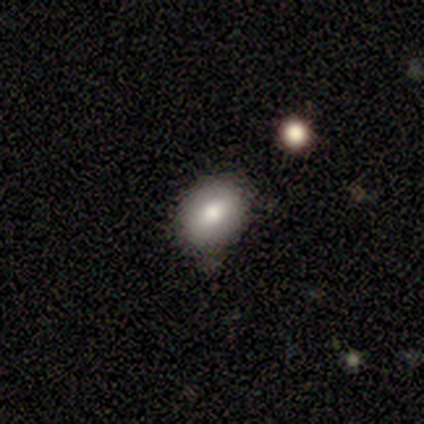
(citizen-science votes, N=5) smooth-or-featured: smooth: 80% | star or artifact: 20% | featured or disk: 0%
  how-rounded: round: 75% | in between: 25% | cigar-shaped: 0%
  merging: none: 75% | minor disturbance: 25% | major disturbance: 0% | merger: 0%